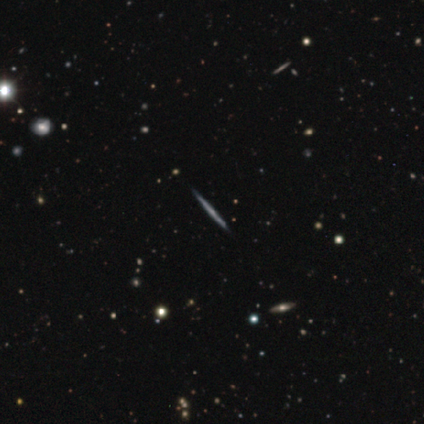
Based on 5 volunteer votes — This appears to be a featured or disk galaxy (100%) viewed edge-on (100%) with no central bulge (60%). Merging: none (100%).